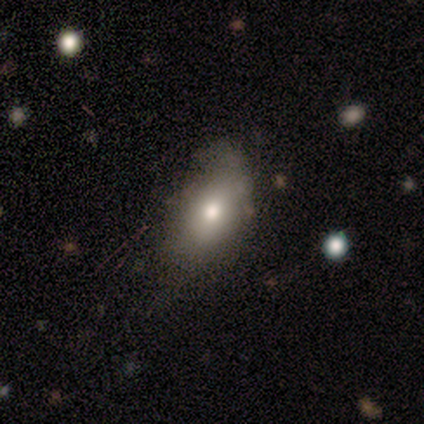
A smooth galaxy with no disk features (73%) that is in between round and cigar-shaped (100%). Merging: minor disturbance (50%).